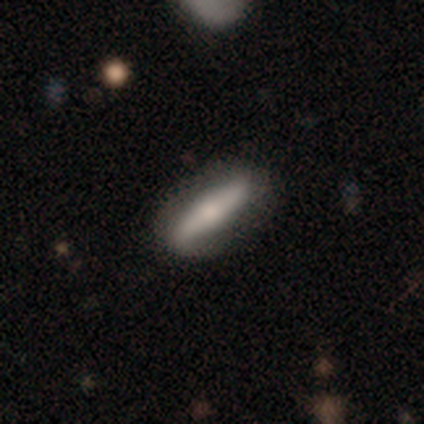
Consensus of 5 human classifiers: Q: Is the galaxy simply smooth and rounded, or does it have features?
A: featured or disk — 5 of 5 (100%).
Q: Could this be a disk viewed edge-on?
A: yes — 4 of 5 (80%).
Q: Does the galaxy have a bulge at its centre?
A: rounded — 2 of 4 (50%).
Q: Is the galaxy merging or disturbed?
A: none — 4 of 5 (80%).